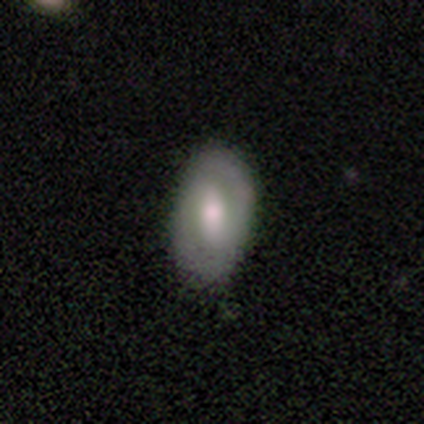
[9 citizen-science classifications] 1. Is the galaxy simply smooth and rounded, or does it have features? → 56% smooth, 44% featured or disk, 0% star or artifact.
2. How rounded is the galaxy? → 100% in between, 0% round, 0% cigar-shaped.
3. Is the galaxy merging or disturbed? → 89% none, 11% minor disturbance, 0% major disturbance, 0% merger.